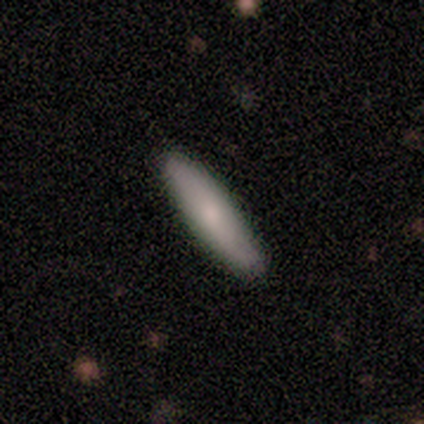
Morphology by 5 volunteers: A smooth galaxy with no disk features (100%) that is in between round and cigar-shaped (40%, tied with cigar-shaped).

Vote fractions:
- Smooth or featured? smooth: 100% / featured or disk: 0% / star or artifact: 0%
- How rounded? in between: 40% (tied) / cigar-shaped: 40% (tied) / round: 20%
- Merging? none: 40% (tied) / minor disturbance: 40% (tied) / merger: 20% / major disturbance: 0%